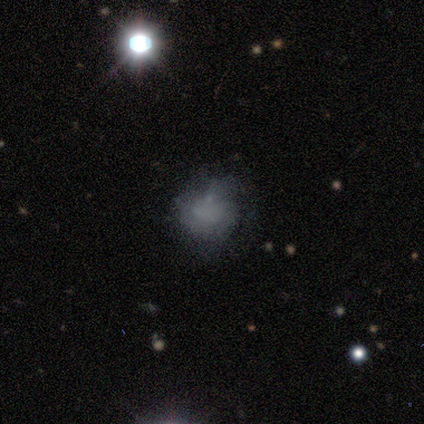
Morphology: type=smooth (40%, tied with featured or disk); roundness=round (50%, tied with in between); merging=none (50%).